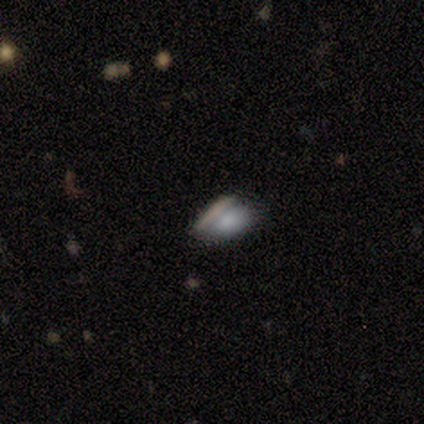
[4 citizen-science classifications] This appears to be a smooth galaxy with no disk features (75%) that is in between round and cigar-shaped (100%). Merging: none (75%).